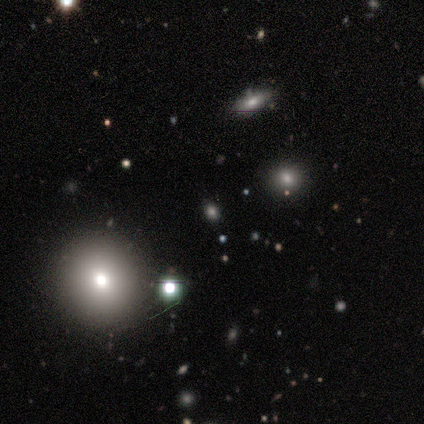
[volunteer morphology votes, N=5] Smooth or featured: smooth — 60% (featured or disk — 20%)
How rounded: round — 67% (in between — 33%)
Merging: none — 100%